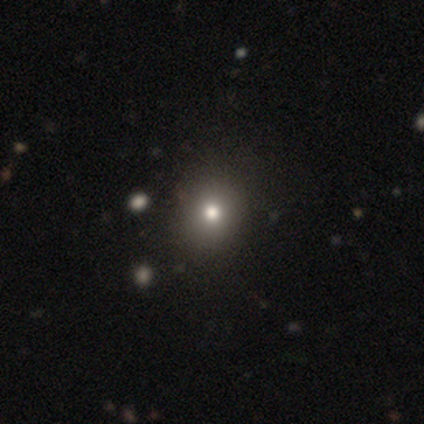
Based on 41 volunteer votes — Smooth or featured? 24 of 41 (59%) said smooth. How rounded? 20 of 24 (83%) said round. Merging? 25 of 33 (76%) said none.